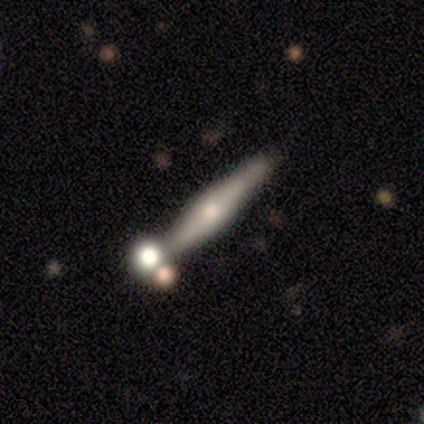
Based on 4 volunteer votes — smooth_or_featured: featured or disk (p=0.50) [alt: smooth p=0.25]
disk_edge_on: yes (p=1.00)
edge_on_bulge: rounded (p=1.00)
merging: minor disturbance (p=0.67) [alt: none p=0.33]